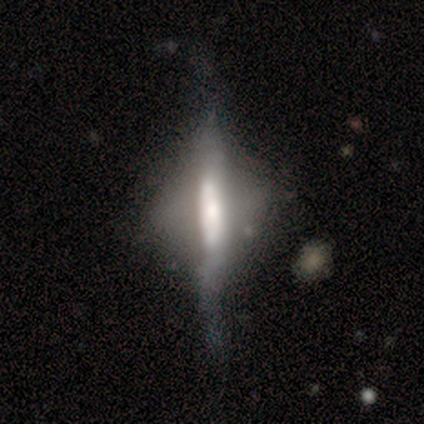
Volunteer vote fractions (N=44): smooth_or_featured: featured or disk (p=0.84) [alt: smooth p=0.11]
disk_edge_on: yes (p=0.68) [alt: no p=0.32]
edge_on_bulge: boxy (p=0.44) [tied with: rounded p=0.44]
merging: major disturbance (p=0.36) [alt: none p=0.31]